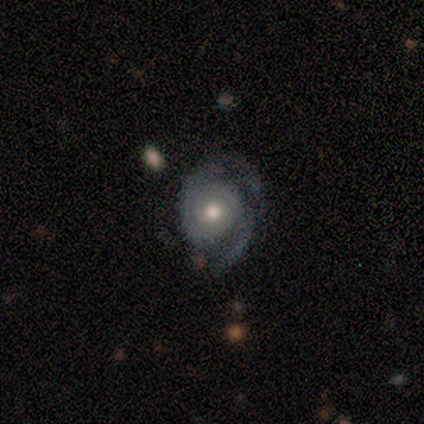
A featured or disk galaxy (100%) with no bar (60%), medium (80%) spiral arms (100%) and a moderate central bulge (100%). Merging: none (60%).